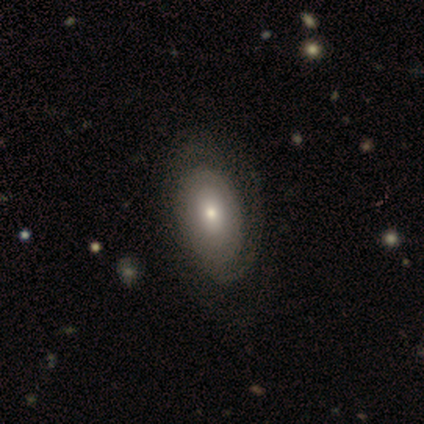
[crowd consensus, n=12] A featured or disk galaxy (67%) with no bar (100%), no spiral arms (62%) and a moderate central bulge (62%).

Vote fractions:
- Smooth or featured? featured or disk: 67% / smooth: 33% / star or artifact: 0%
- Edge-on disk? no: 100% / yes: 0%
- Bar? no: 100% / strong: 0% / weak: 0%
- Spiral arms? no: 62% / yes: 38%
- Bulge size? moderate: 62% / small: 25% / none: 12% / dominant: 0% / large: 0%
- Merging? none: 67% / minor disturbance: 25% / major disturbance: 8% / merger: 0%